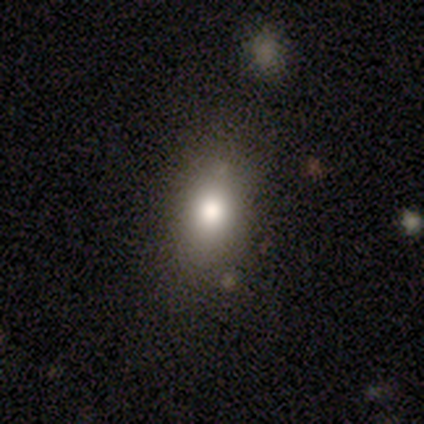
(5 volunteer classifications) Smooth or featured: smooth — 100%
How rounded: in between — 80% (round — 20%)
Merging: none — 100%